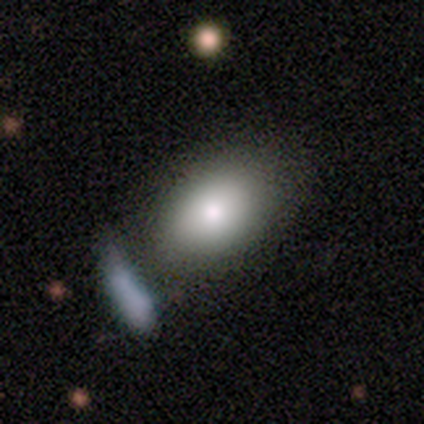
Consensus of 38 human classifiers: Q: Smooth or featured?
A: smooth (66%); runner-up: featured or disk (26%)
Q: How rounded?
A: in between (80%); runner-up: round (20%)
Q: Merging?
A: none (46%); runner-up: merger (31%)